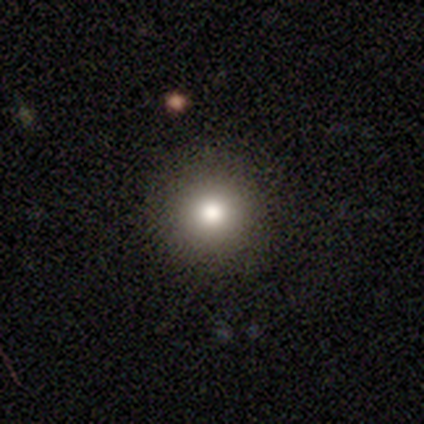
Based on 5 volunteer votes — Q: Smooth or featured?
A: smooth (80%); runner-up: star or artifact (20%)
Q: How rounded?
A: round (100%)
Q: Merging?
A: none (100%)